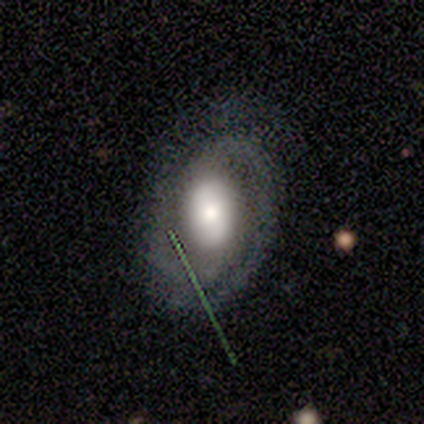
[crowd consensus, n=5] Smooth or featured? featured or disk (60%)
Edge-on disk? no (100%)
Bar? no (67%)
Spiral arms? yes (100%)
Spiral winding? tight (100%)
Spiral arm count? 1 (33%, tied with 2 and more than 4)
Bulge size? large (33%, tied with moderate and small)
Merging? none (80%)